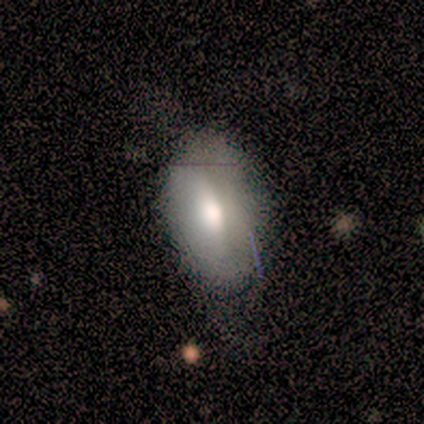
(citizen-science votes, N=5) This appears to be a smooth galaxy with no disk features (40%, tied with featured or disk) that is in between round and cigar-shaped (100%). Merging: none (50%, tied with minor disturbance).